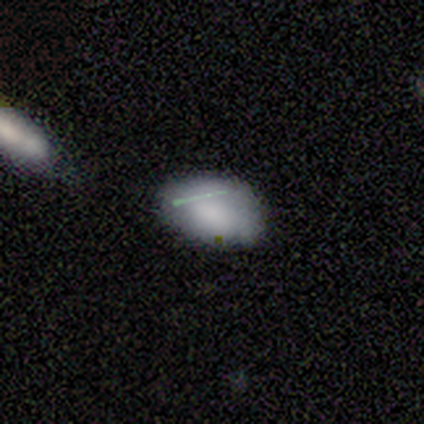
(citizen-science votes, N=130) This appears to be a smooth galaxy with no disk features (79%) that is in between round and cigar-shaped (93%). Merging: none (59%).